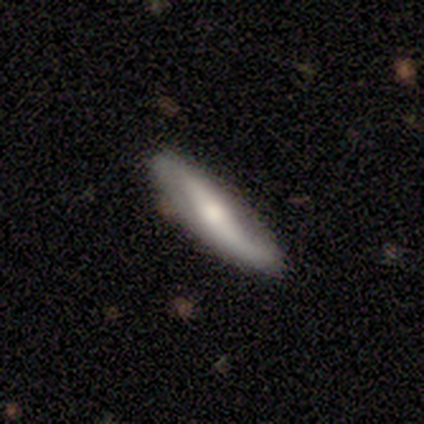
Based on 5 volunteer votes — smooth-or-featured: featured or disk: 80% | star or artifact: 20% | smooth: 0%
  disk-edge-on: no: 75% | yes: 25%
    bar: no: 67% | weak: 33% | strong: 0%
    has-spiral-arms: yes: 67% | no: 33%
      spiral-winding: loose: 100% | tight: 0% | medium: 0%
      spiral-arm-count: 2: 100% | 1: 0% | 3: 0% | 4: 0% | more than 4: 0% | can't tell: 0%
    bulge-size: moderate: 67% | small: 33% | dominant: 0% | large: 0% | none: 0%
  merging: none: 100% | minor disturbance: 0% | major disturbance: 0% | merger: 0%